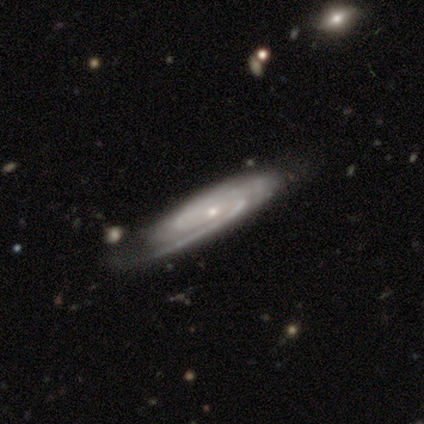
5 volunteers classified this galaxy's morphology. featured or disk 100%, smooth 0%, star or artifact 0%. Down the decision tree: edge-on disk — no (100%); bar — no (60%); spiral arms — yes (100%); spiral arm count — 2 (40%, tied with can't tell); spiral winding — tight (60%); bulge size — small (100%); merging — none (80%).